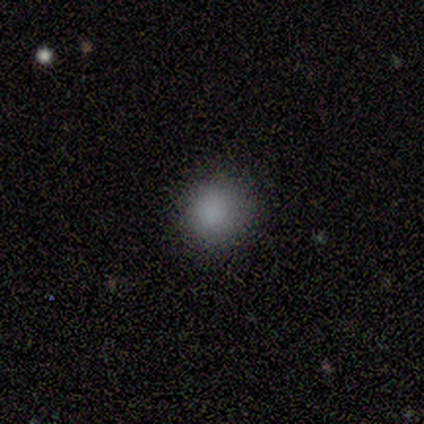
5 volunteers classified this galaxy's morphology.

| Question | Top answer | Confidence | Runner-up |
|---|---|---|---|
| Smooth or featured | smooth | 100% | — |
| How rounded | round | 80% | in between (20%) |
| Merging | none | 100% | — |